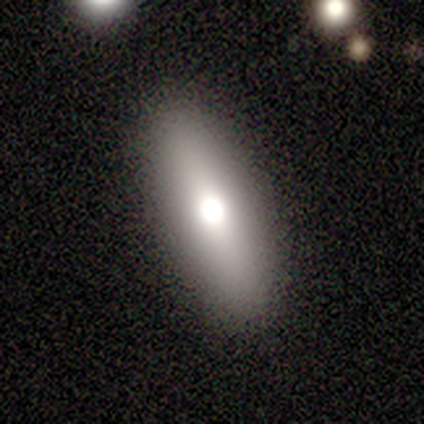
This is likely a smooth galaxy (71%). How rounded: likely cigar-shaped (60%). Merging: clearly none (100%).